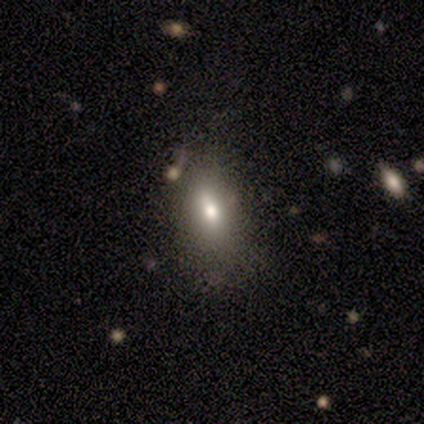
Volunteers were most divided on "smooth or featured" (2-way tie): smooth: 50%, featured or disk: 50%, star or artifact: 0%. More confident: how rounded — in between (100%); merging — none (100%).